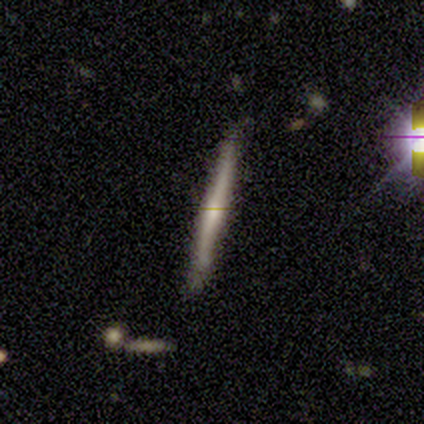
Volunteers were most divided on "edge-on bulge": none: 67%, rounded: 33%, boxy: 0%. More confident: edge-on disk — yes (100%); merging — none (75%); smooth or featured — featured or disk (60%).